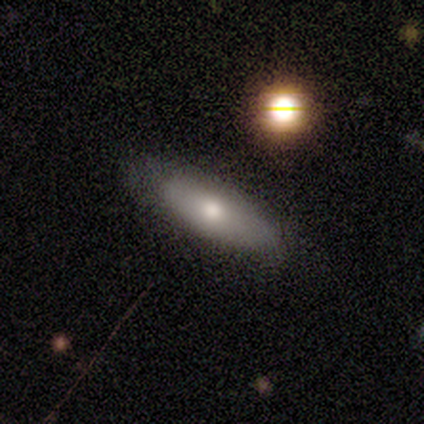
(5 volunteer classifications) A smooth galaxy with no disk features (60%) that is in between round and cigar-shaped (67%). Merging: none (100%).